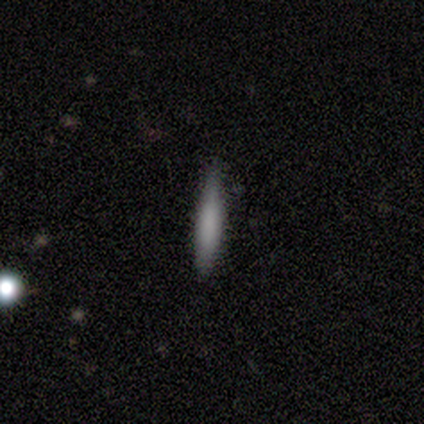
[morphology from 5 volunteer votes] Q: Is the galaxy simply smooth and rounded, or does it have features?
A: smooth — 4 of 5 (80%).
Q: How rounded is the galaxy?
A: cigar-shaped — 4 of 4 (100%).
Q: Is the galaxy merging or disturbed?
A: none — 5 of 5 (100%).